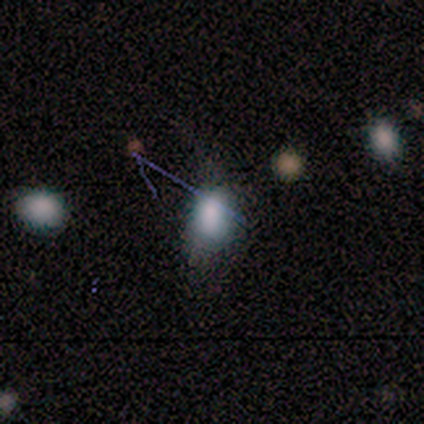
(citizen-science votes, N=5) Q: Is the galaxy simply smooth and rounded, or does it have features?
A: smooth — 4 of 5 (80%).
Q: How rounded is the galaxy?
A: in between — 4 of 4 (100%).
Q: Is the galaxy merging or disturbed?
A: none — 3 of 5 (60%).